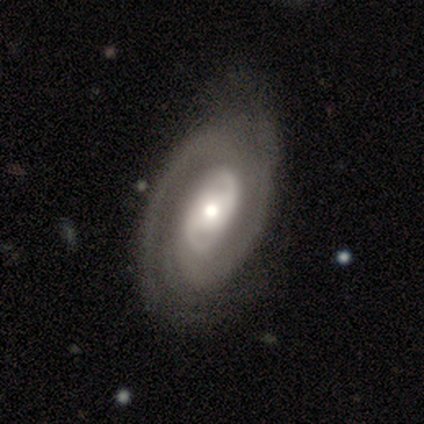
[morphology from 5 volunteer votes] smooth-or-featured: featured or disk: 80% | star or artifact: 20% | smooth: 0%
  disk-edge-on: no: 100% | yes: 0%
    bar: no: 50% | strong: 25% | weak: 25%
    has-spiral-arms: yes: 75% | no: 25%
      spiral-winding: tight: 100% | medium: 0% | loose: 0%
      spiral-arm-count: 2: 33% (tied) | 3: 33% (tied) | can't tell: 33% (tied) | 1: 0% | 4: 0% | more than 4: 0%
    bulge-size: moderate: 75% | large: 25% | dominant: 0% | small: 0% | none: 0%
  merging: none: 50% (tied) | minor disturbance: 50% (tied) | major disturbance: 0% | merger: 0%